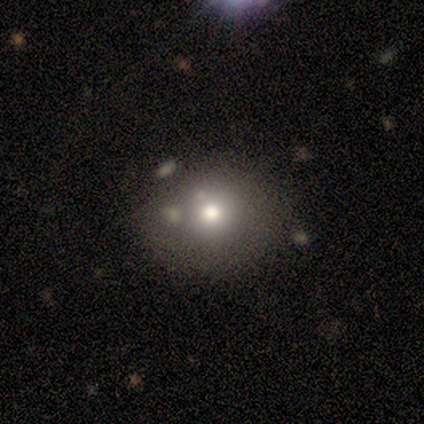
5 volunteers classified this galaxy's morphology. smooth-or-featured: smooth: 80% | star or artifact: 20% | featured or disk: 0%
  how-rounded: round: 75% | in between: 25% | cigar-shaped: 0%
  merging: none: 50% | minor disturbance: 25% | merger: 25% | major disturbance: 0%